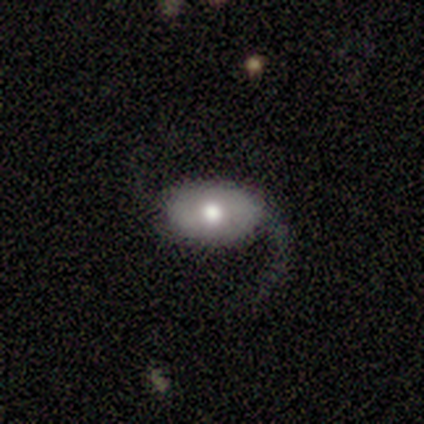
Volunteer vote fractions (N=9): A featured or disk galaxy (89%) with a weak bar (62%), 1 (60%) loose (80%) spiral arms (62%) and a moderate central bulge (88%).

Vote fractions:
- Smooth or featured? featured or disk: 89% / smooth: 11% / star or artifact: 0%
- Edge-on disk? no: 100% / yes: 0%
- Bar? weak: 62% / no: 25% / strong: 12%
- Spiral arms? yes: 62% / no: 38%
- Spiral winding? loose: 80% / medium: 20% / tight: 0%
- Spiral arm count? 1: 60% / 2: 40% / 3: 0% / 4: 0% / more than 4: 0% / can't tell: 0%
- Bulge size? moderate: 88% / large: 12% / dominant: 0% / small: 0% / none: 0%
- Merging? none: 44% / major disturbance: 33% / minor disturbance: 22% / merger: 0%